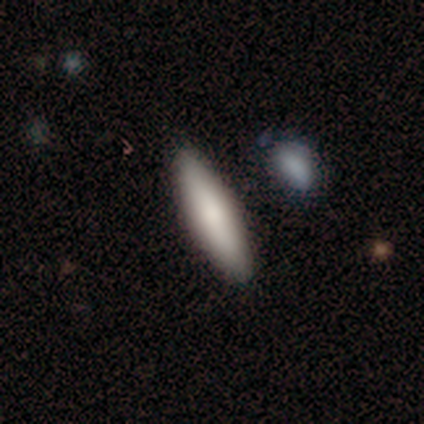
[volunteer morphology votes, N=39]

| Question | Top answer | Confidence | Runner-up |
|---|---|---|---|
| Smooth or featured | smooth | 85% | featured or disk (13%) |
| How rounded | cigar-shaped | 58% | in between (42%) |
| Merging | none | 92% | merger (5%) |